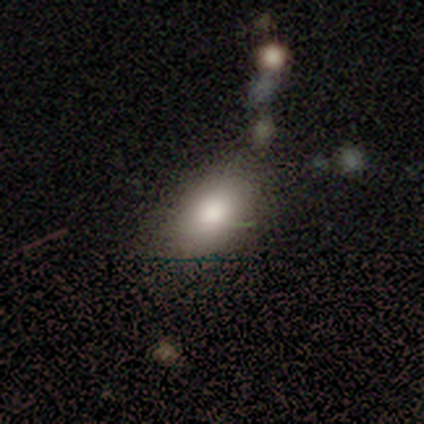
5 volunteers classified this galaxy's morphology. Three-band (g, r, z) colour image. It shows a smooth galaxy with no disk features (40%, tied with featured or disk) that is in between round and cigar-shaped (100%). Merging: none (50%).